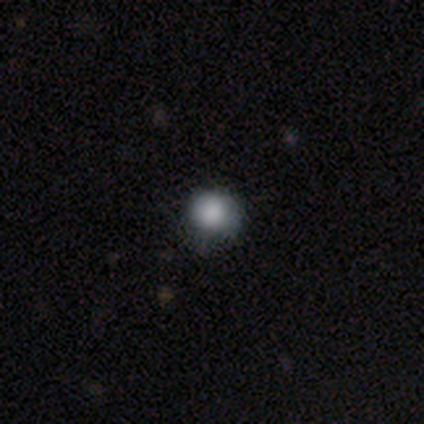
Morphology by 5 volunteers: Q: Smooth or featured?
A: smooth (80%); runner-up: star or artifact (20%)
Q: How rounded?
A: round (100%)
Q: Merging?
A: none (50%); tied with: minor disturbance (50%)